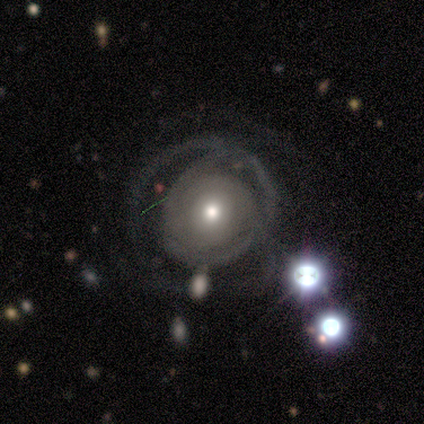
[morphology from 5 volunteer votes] smooth_or_featured: featured or disk (p=0.80) [alt: star or artifact p=0.20]
disk_edge_on: no (p=1.00)
bar: no (p=1.00)
has_spiral_arms: yes (p=1.00)
spiral_winding: tight (p=0.50) [alt: medium p=0.25]
spiral_arm_count: can't tell (p=0.75) [alt: 3 p=0.25]
bulge_size: moderate (p=0.50) [tied with: small p=0.50]
merging: major disturbance (p=0.50) [alt: none p=0.25]